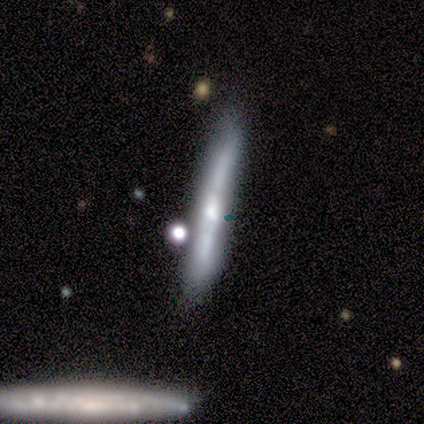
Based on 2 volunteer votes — A smooth galaxy with no disk features (100%) that is cigar-shaped (100%). Merging: none (50%, tied with minor disturbance).